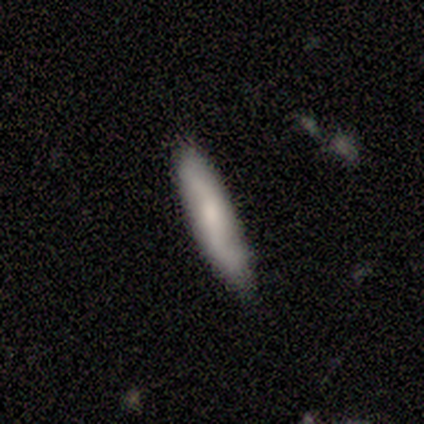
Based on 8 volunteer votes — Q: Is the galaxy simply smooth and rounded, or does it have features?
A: smooth — 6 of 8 (75%).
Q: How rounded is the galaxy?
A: cigar-shaped — 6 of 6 (100%).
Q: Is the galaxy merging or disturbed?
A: none — 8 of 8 (100%).